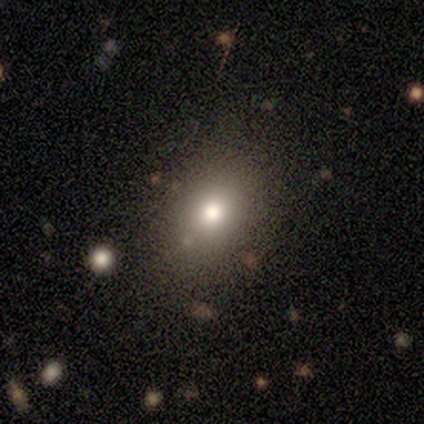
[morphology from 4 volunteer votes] Volunteers were most divided on "merging" (3-way tie): none: 33%, minor disturbance: 33%, major disturbance: 33%, merger: 0%. More confident: smooth or featured — smooth (75%); how rounded — in between (67%).